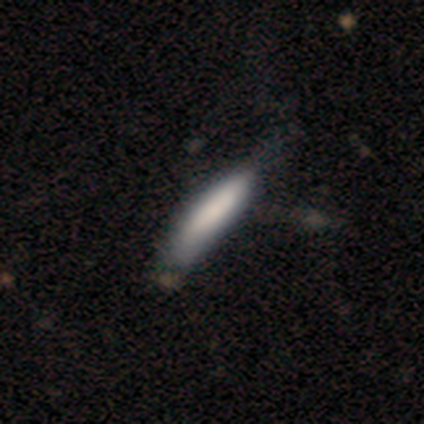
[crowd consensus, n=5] Smooth or featured?
  - smooth: 80% *
  - featured or disk: 20%
  - star or artifact: 0%
How rounded?
  - cigar-shaped: 100% *
  - round: 0%
  - in between: 0%
Merging?
  - none: 60% *
  - minor disturbance: 20%
  - major disturbance: 20%
  - merger: 0%